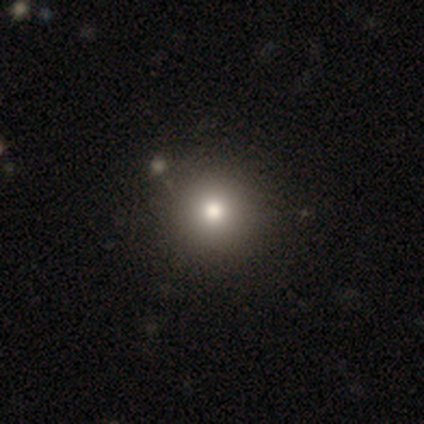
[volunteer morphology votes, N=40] type=smooth (85%); roundness=round (94%); merging=none (75%).